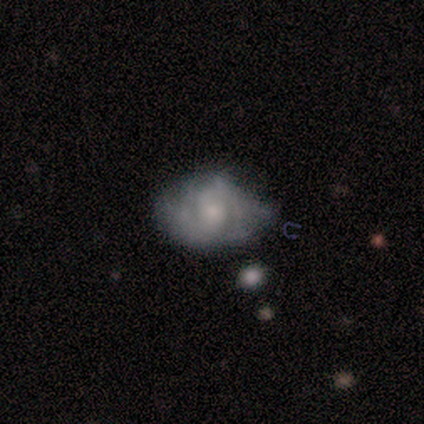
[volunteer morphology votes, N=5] Q: Smooth or featured?
A: featured or disk (80%); runner-up: star or artifact (20%)
Q: Edge-on disk?
A: no (75%); runner-up: yes (25%)
Q: Bar?
A: no (67%); runner-up: weak (33%)
Q: Spiral arms?
A: yes (67%); runner-up: no (33%)
Q: Spiral winding?
A: medium (100%)
Q: Spiral arm count?
A: 2 (100%)
Q: Bulge size?
A: moderate (67%); runner-up: small (33%)
Q: Merging?
A: none (50%); tied with: minor disturbance (50%)